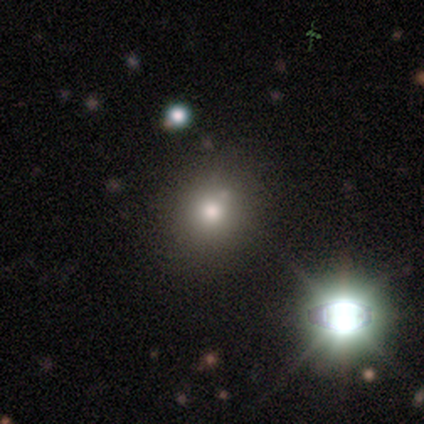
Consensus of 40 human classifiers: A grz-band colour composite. It shows a smooth galaxy with no disk features (70%) that is round (93%). Merging: none (49%).